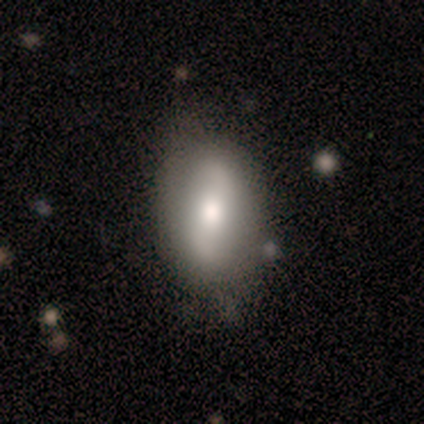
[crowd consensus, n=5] Smooth or featured: smooth — 60% (featured or disk — 40%)
How rounded: in between — 67% (round — 33%)
Merging: none — 100%